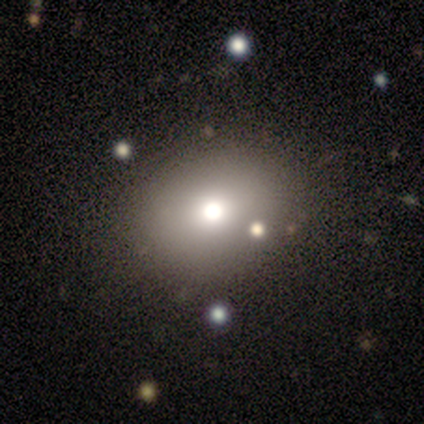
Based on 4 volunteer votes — Smooth or featured?
  - smooth: 75% *
  - featured or disk: 25%
  - star or artifact: 0%
How rounded?
  - in between: 100% *
  - round: 0%
  - cigar-shaped: 0%
Merging?
  - none: 100% *
  - minor disturbance: 0%
  - major disturbance: 0%
  - merger: 0%